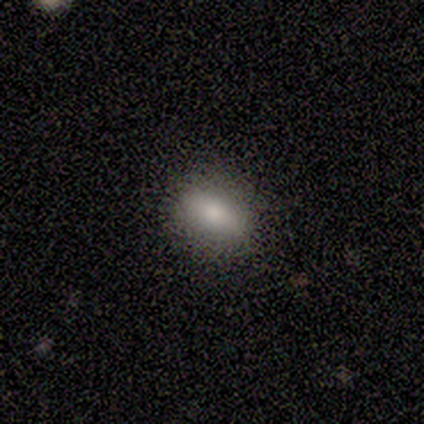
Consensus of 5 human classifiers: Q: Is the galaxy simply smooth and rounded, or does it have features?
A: smooth — 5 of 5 (100%).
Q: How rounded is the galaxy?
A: in between — 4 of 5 (80%).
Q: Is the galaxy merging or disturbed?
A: none — 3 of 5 (60%).